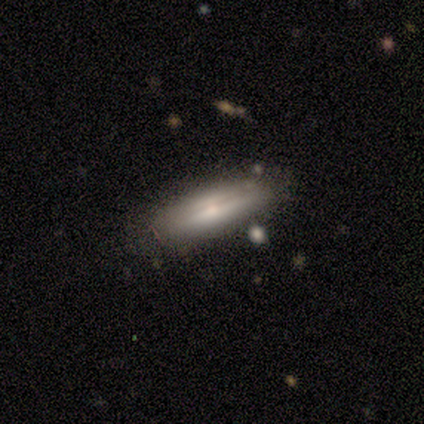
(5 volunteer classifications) Smooth or featured: smooth — 100%
How rounded: cigar-shaped — 80% (in between — 20%)
Merging: none — 60% (minor disturbance — 40%)